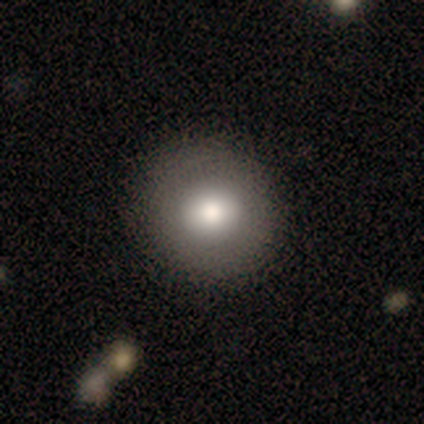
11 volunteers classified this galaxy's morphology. smooth 82%, featured or disk 18%, star or artifact 0%. Down the decision tree: how rounded — round (89%); merging — none (82%).